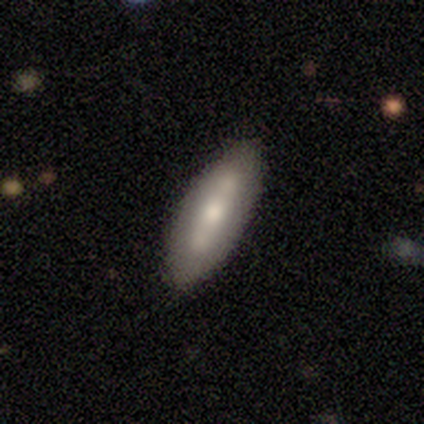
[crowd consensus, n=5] This is likely a smooth galaxy (60%). How rounded: clearly in between (100%). Merging: clearly none (80%).